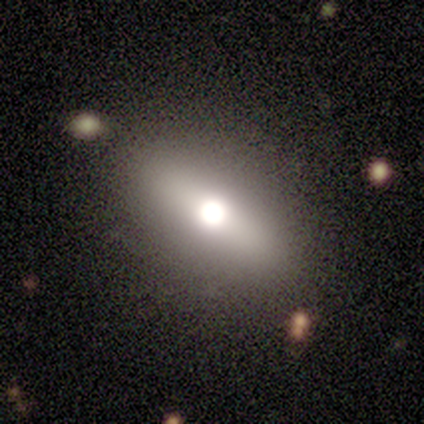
Morphology: type=featured or disk (83%); edge-on=no (60%); bar=strong (67%); spiral arms=no (100%); bulge=moderate (67%); merging=none (100%).